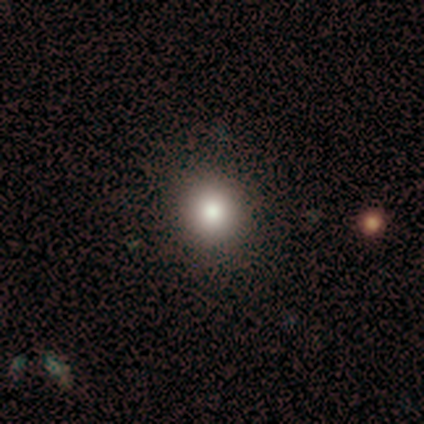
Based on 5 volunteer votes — Smooth or featured: smooth — 80% (star or artifact — 20%)
How rounded: round — 75% (in between — 25%)
Merging: none — 100%